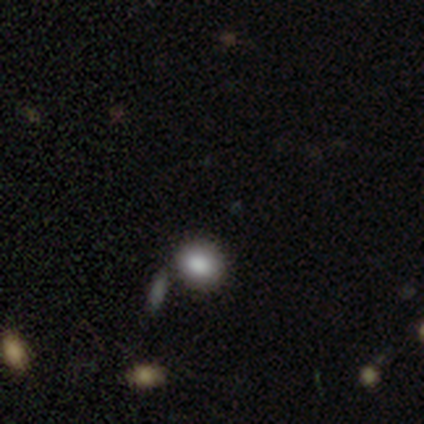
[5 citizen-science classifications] A smooth galaxy with no disk features (60%) that is round (67%).

Vote fractions:
- Smooth or featured? smooth: 60% / featured or disk: 20% / star or artifact: 20%
- How rounded? round: 67% / in between: 33% / cigar-shaped: 0%
- Merging? none: 100% / minor disturbance: 0% / major disturbance: 0% / merger: 0%